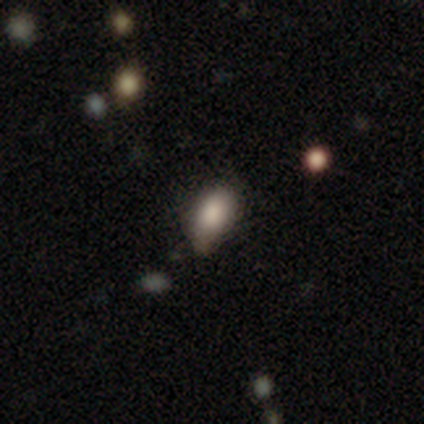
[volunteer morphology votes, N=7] Volunteers were most divided on "merging": minor disturbance: 50%, none: 33%, major disturbance: 17%, merger: 0%. More confident: how rounded — in between (75%); smooth or featured — smooth (57%).